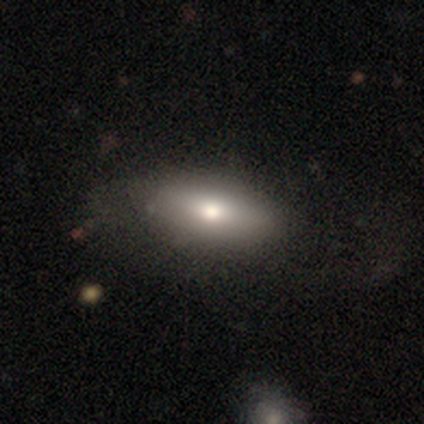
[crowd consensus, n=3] Q: Smooth or featured?
A: featured or disk (67%); runner-up: smooth (33%)
Q: Edge-on disk?
A: yes (50%); tied with: no (50%)
Q: Edge-on bulge?
A: none (100%)
Q: Merging?
A: none (100%)